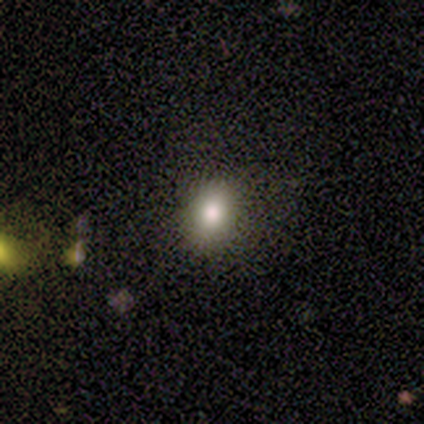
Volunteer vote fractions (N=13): This appears to be a smooth galaxy with no disk features (77%) that is in between round and cigar-shaped (80%). Merging: none (92%).